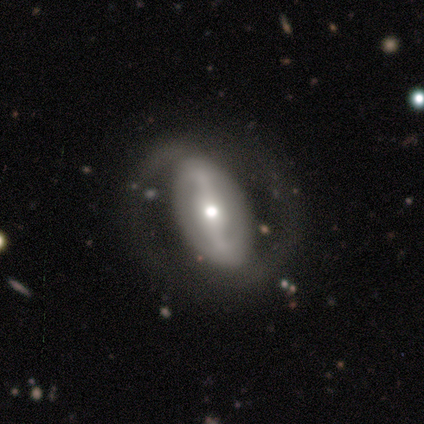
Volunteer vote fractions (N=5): featured or disk 100%, smooth 0%, star or artifact 0%. Down the decision tree: edge-on disk — no (100%); bar — strong (80%); spiral arms — yes (60%); spiral arm count — 2 (100%); spiral winding — medium (67%); bulge size — moderate (100%); merging — none (80%).